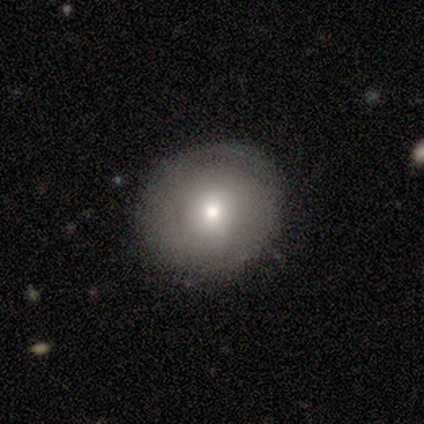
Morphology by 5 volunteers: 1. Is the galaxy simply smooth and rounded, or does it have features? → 80% smooth, 20% featured or disk, 0% star or artifact.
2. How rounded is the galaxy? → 100% round, 0% in between, 0% cigar-shaped.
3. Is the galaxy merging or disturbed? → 100% none, 0% minor disturbance, 0% major disturbance, 0% merger.